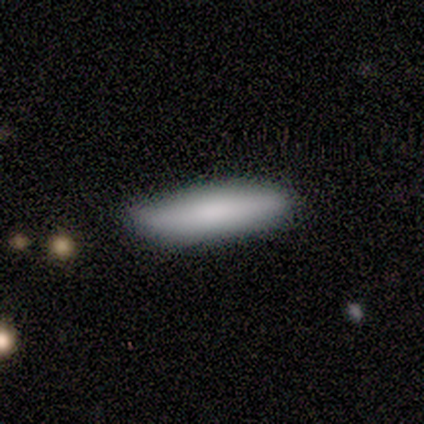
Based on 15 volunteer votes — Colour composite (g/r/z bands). It shows a smooth galaxy with no disk features (80%) that is cigar-shaped (83%). Merging: none (86%).